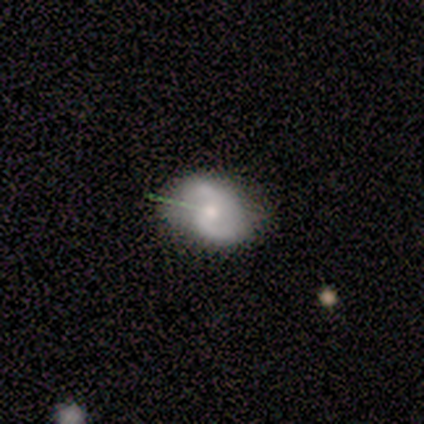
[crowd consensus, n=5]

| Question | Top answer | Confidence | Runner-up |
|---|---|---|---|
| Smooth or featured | featured or disk | 60% | star or artifact (40%) |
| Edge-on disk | no | 100% | — |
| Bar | no | 67% | weak (33%) |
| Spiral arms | yes | 100% | — |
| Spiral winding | medium | 67% | loose (33%) |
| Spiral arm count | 2 | 100% | — |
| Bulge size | small | 100% | — |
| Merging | minor disturbance | 67% | none (33%) |